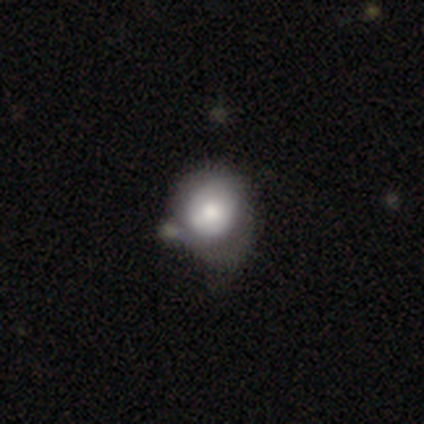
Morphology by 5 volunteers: Smooth or featured: featured or disk — 60% (smooth — 40%)
Edge-on disk: no — 100%
Bar: no — 67% (weak — 33%)
Spiral arms: no — 100%
Bulge size: large — 67% (moderate — 33%)
Merging: none — 60% (merger — 40%)